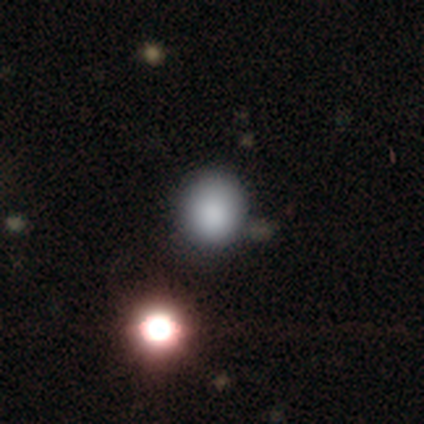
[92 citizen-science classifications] smooth_or_featured: smooth (p=0.73) [alt: star or artifact p=0.21]
how_rounded: round (p=0.87) [alt: in between p=0.13]
merging: none (p=0.73) [alt: minor disturbance p=0.14]